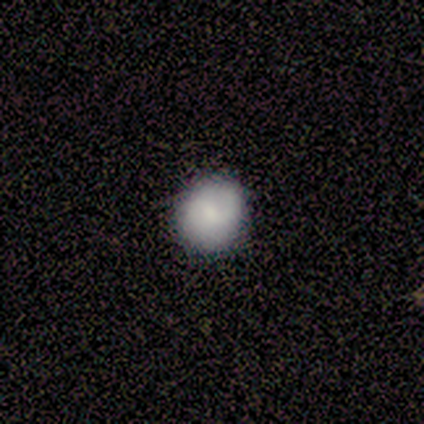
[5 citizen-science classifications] This is likely a smooth galaxy (60%). How rounded: likely round (67%). Merging: likely none (75%).